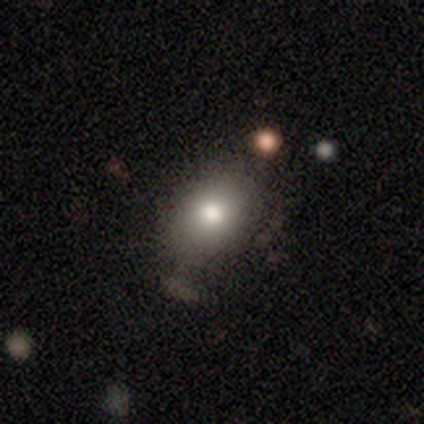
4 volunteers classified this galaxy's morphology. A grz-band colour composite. It shows a smooth galaxy with no disk features (50%, tied with star or artifact) that is round (50%, tied with in between). Merging: none (50%, tied with minor disturbance).